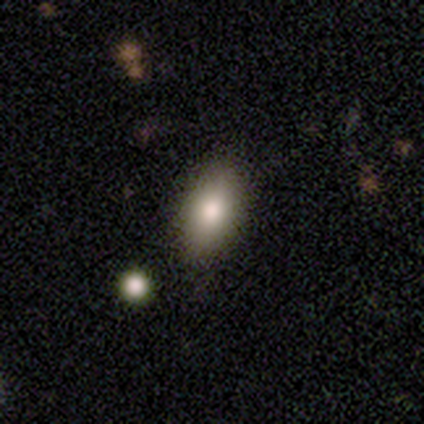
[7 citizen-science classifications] Q: Smooth or featured?
A: smooth (86%); runner-up: featured or disk (14%)
Q: How rounded?
A: in between (67%); runner-up: round (17%)
Q: Merging?
A: none (100%)